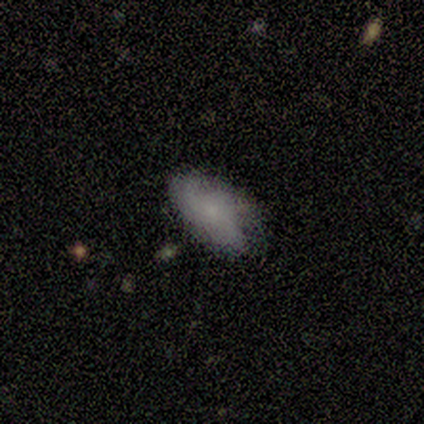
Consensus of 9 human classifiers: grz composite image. It shows a smooth galaxy with no disk features (89%) that is in between round and cigar-shaped (100%). Merging: none (56%).